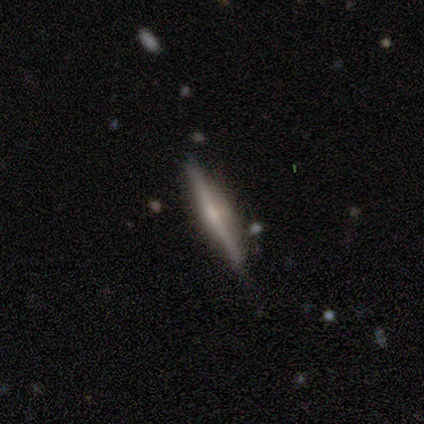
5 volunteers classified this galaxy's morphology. Smooth or featured? featured or disk (80%)
Edge-on disk? yes (100%)
Edge-on bulge? boxy (50%)
Merging? none (100%)